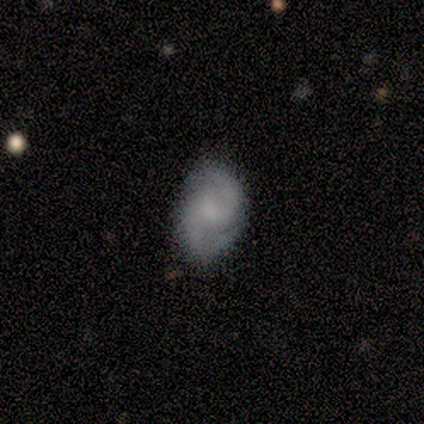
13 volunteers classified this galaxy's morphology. smooth 62%, featured or disk 31%, star or artifact 8%. Down the decision tree: how rounded — in between (88%); merging — none (58%).